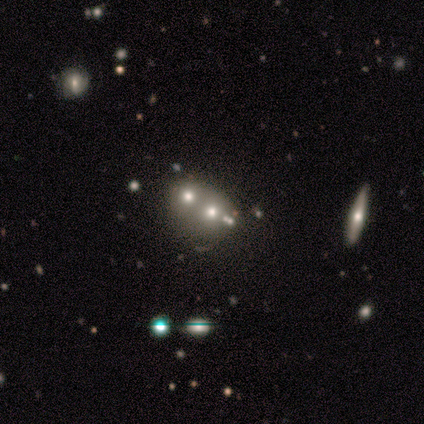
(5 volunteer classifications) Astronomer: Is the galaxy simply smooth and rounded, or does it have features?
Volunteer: smooth — 80%.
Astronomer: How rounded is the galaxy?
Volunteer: round — 100%.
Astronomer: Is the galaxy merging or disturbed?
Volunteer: merger — 80%.